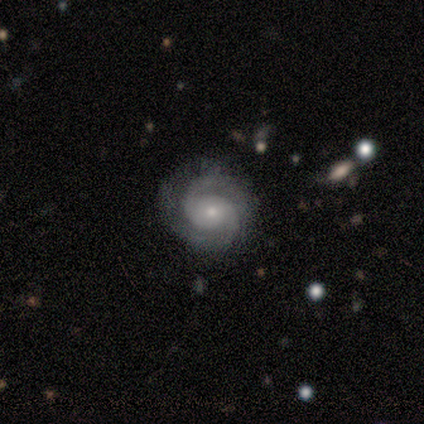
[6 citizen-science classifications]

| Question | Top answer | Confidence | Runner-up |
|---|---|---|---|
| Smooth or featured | featured or disk | 83% | smooth (17%) |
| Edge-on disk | no | 100% | — |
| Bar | no | 80% | weak (20%) |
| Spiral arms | yes | 100% | — |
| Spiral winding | tight | 60% | medium (40%) |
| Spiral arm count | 2 | 100% | — |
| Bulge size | small | 60% | moderate (40%) |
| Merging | none | 67% | minor disturbance (17%) |